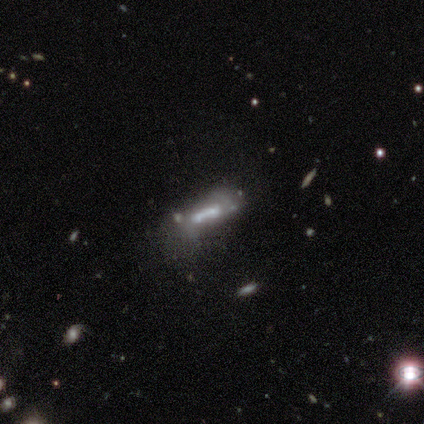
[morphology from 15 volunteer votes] smooth 60%, featured or disk 33%, star or artifact 7%. Down the decision tree: how rounded — cigar-shaped (56%); merging — merger (43%).